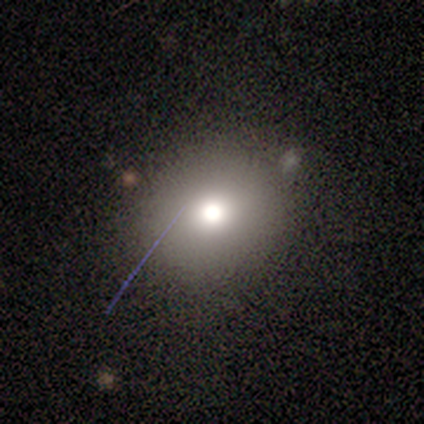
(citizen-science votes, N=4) smooth-or-featured: smooth: 50% | featured or disk: 25% | star or artifact: 25%
  how-rounded: round: 50% (tied) | in between: 50% (tied) | cigar-shaped: 0%
  merging: none: 100% | minor disturbance: 0% | major disturbance: 0% | merger: 0%